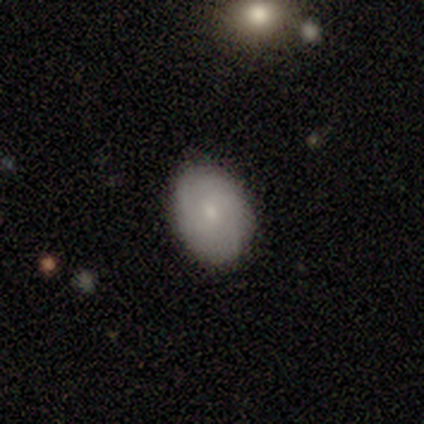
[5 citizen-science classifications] smooth-or-featured: featured or disk: 60% | smooth: 40% | star or artifact: 0%
  disk-edge-on: no: 100% | yes: 0%
    bar: no: 100% | strong: 0% | weak: 0%
    has-spiral-arms: yes: 100% | no: 0%
      spiral-winding: tight: 33% (tied) | medium: 33% (tied) | loose: 33% (tied)
      spiral-arm-count: can't tell: 67% | 2: 33% | 1: 0% | 3: 0% | 4: 0% | more than 4: 0%
    bulge-size: small: 100% | dominant: 0% | large: 0% | moderate: 0% | none: 0%
  merging: none: 80% | minor disturbance: 20% | major disturbance: 0% | merger: 0%